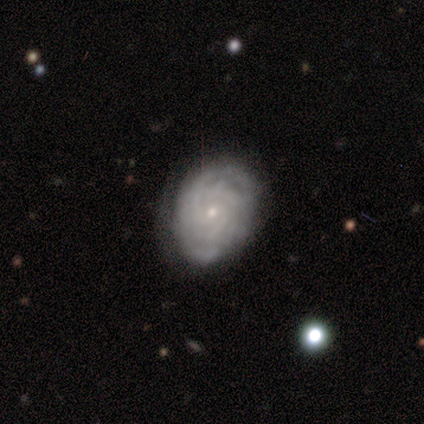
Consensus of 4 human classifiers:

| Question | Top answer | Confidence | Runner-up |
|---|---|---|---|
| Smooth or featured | featured or disk | 75% | smooth (25%) |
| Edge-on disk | no | 100% | — |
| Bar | no | 67% | weak (33%) |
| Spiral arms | yes | 100% | — |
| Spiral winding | tight | 67% | loose (33%) |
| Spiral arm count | can't tell | 67% | 3 (33%) |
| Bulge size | small | 100% | — |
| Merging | minor disturbance | 100% | — |